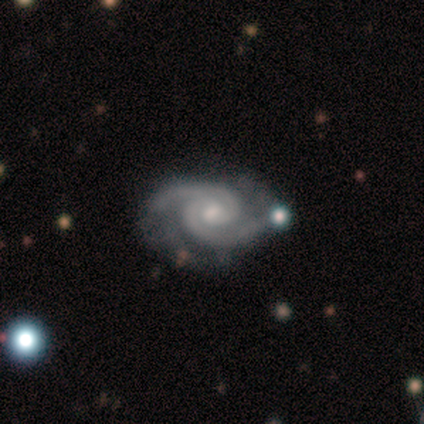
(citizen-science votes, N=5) Morphology: type=featured or disk (80%); edge-on=no (100%); bar=no (50%); spiral arms=yes (100%); winding=tight (75%); arm count=2 (100%); bulge=moderate (50%, tied with small); merging=none (50%, tied with minor disturbance).